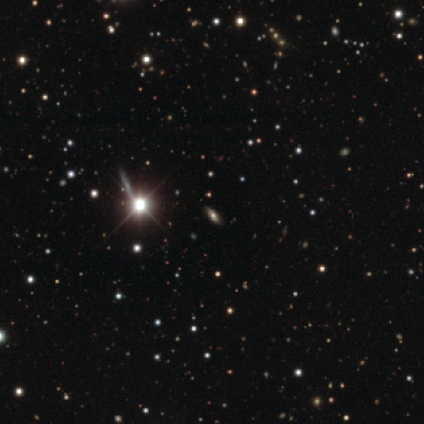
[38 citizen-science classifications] Smooth or featured: star or artifact — 53% (smooth — 26%)